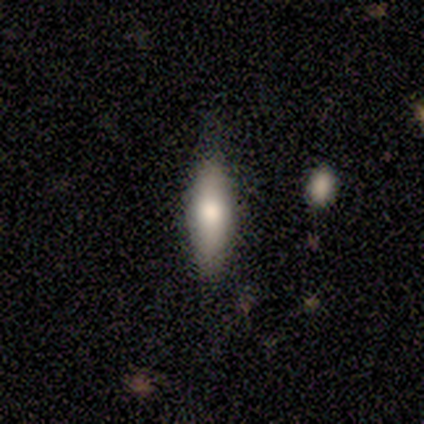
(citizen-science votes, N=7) Q: Smooth or featured?
A: smooth (86%); runner-up: featured or disk (14%)
Q: How rounded?
A: cigar-shaped (83%); runner-up: in between (17%)
Q: Merging?
A: none (100%)